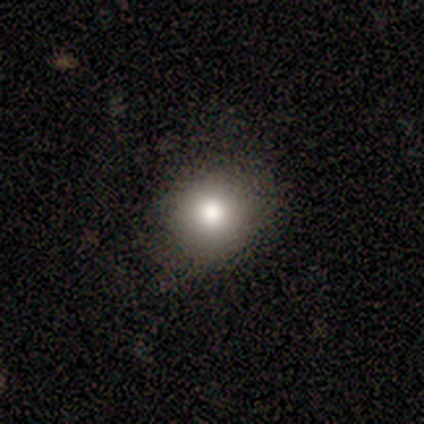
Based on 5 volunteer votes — Volunteers were most divided on "smooth or featured": smooth: 60%, featured or disk: 20%, star or artifact: 20%. More confident: how rounded — round (100%); merging — none (75%).